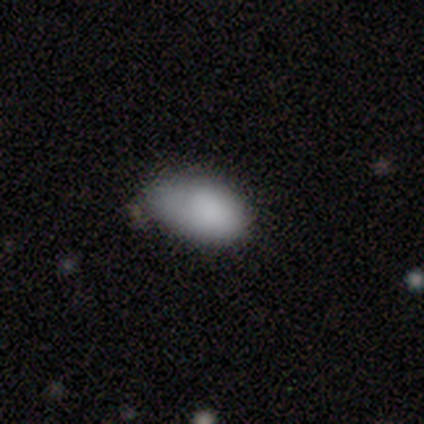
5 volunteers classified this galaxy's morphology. smooth_or_featured: smooth (p=1.00)
how_rounded: in between (p=1.00)
merging: none (p=0.60) [alt: minor disturbance p=0.40]